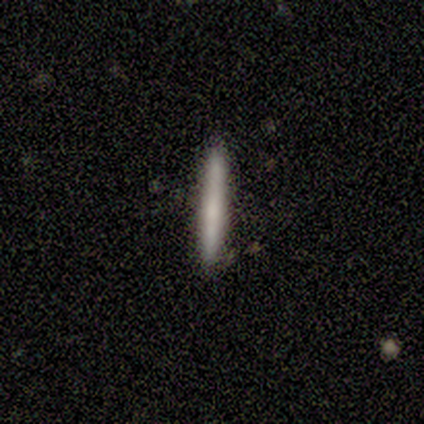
A smooth galaxy with no disk features (67%) that is cigar-shaped (100%). Merging: none (67%).